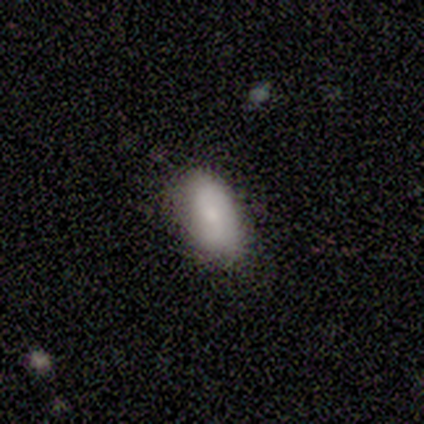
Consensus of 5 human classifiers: Smooth or featured? 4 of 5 (80%) said smooth. How rounded? 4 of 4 (100%) said in between. Merging? 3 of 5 (60%) said none.